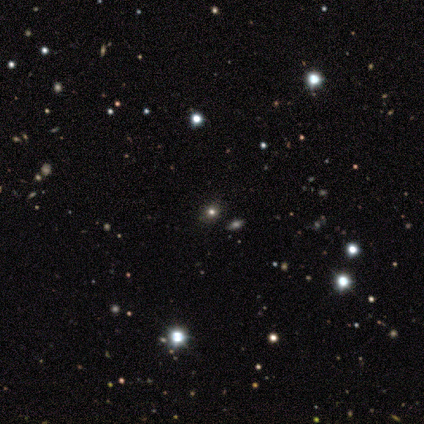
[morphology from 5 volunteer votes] This appears to be a star or artifact, not a galaxy (60%).